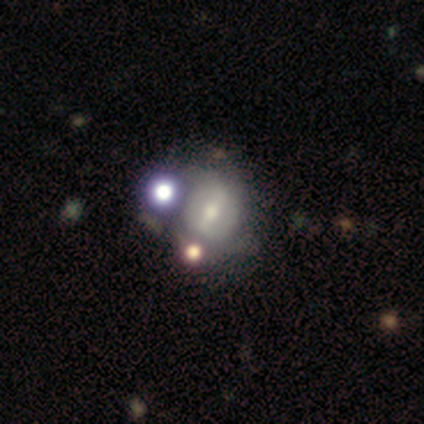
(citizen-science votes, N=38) A featured or disk galaxy (58%) with a strong bar (45%), no spiral arms (64%) and a moderate central bulge (64%). Merging: none (33%).